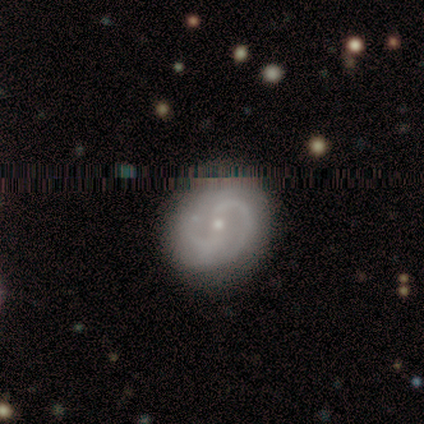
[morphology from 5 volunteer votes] This is clearly a featured or disk galaxy (80%). It is clearly not viewed edge-on (100%). Bar: possibly weak (50%, tied with no). Spiral arm pattern: likely yes (75%). Spiral arm count: clearly 2 (100%). Spiral winding: likely tight (67%). Central bulge: possibly moderate (50%, tied with small). Merging: likely none (75%).